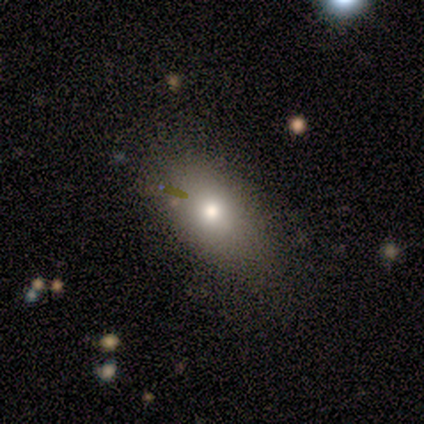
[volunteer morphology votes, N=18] Smooth or featured: smooth — 50% (featured or disk — 33%)
How rounded: in between — 100%
Merging: none — 93% (minor disturbance — 7%)